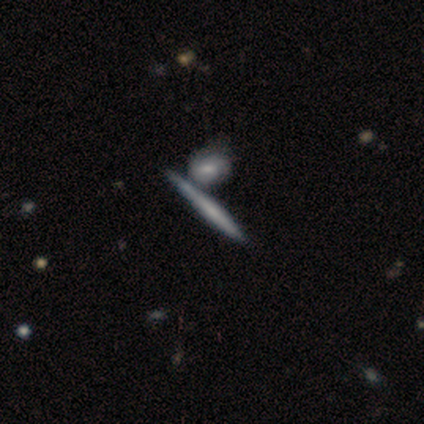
Volunteers were most divided on "smooth or featured" (2-way tie): featured or disk: 40%, star or artifact: 40%, smooth: 20%; "edge-on bulge" (2-way tie): boxy: 50%, none: 50%, rounded: 0%. More confident: edge-on disk — yes (100%); merging — merger (100%).